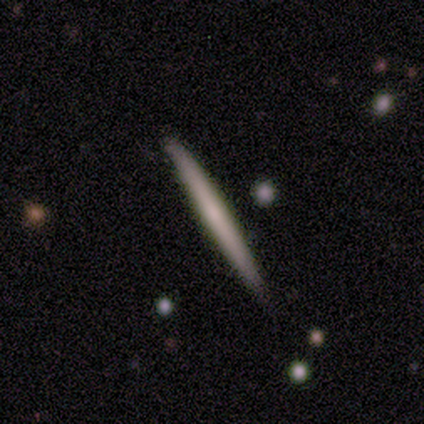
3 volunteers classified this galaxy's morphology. A smooth galaxy with no disk features (67%) that is cigar-shaped (100%). Merging: none (100%).